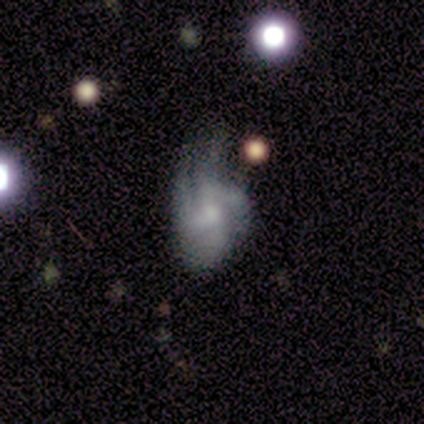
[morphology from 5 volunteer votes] type=featured or disk (60%); edge-on=no (100%); bar=no (100%); spiral arms=yes (100%); winding=loose (100%); arm count=4 (100%); bulge=small (67%); merging=major disturbance (67%).